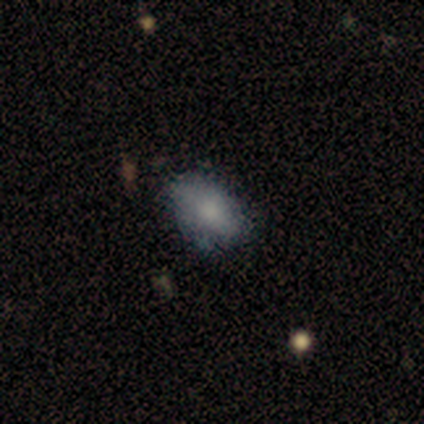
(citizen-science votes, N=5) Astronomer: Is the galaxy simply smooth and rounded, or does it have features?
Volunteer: smooth — 60%.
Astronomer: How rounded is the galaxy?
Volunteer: in between — 100%.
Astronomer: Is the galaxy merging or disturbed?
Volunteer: none — 100%.